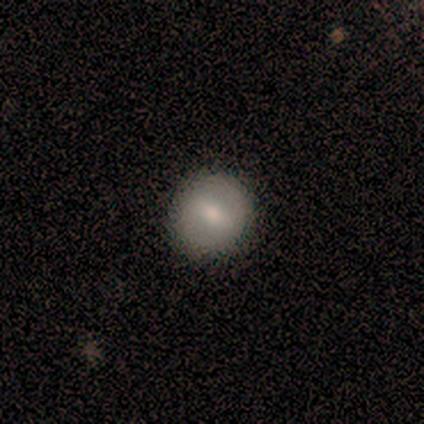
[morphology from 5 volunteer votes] smooth 40% (tied), featured or disk 40% (tied), star or artifact 20%. Down the decision tree: how rounded — round (100%); merging — none (100%).